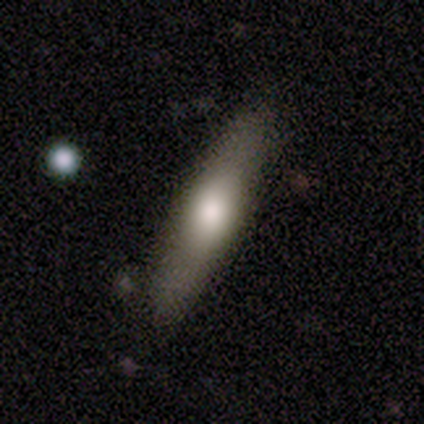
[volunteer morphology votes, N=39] smooth 67%, featured or disk 33%, star or artifact 0%. Down the decision tree: how rounded — cigar-shaped (77%); merging — none (87%).